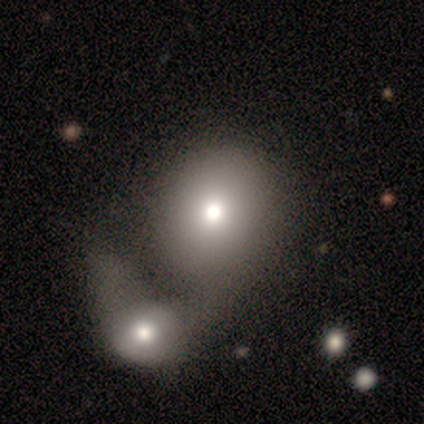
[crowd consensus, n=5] Smooth or featured: smooth — 80% (featured or disk — 20%)
How rounded: round — 100%
Merging: merger — 60% (none — 20%)